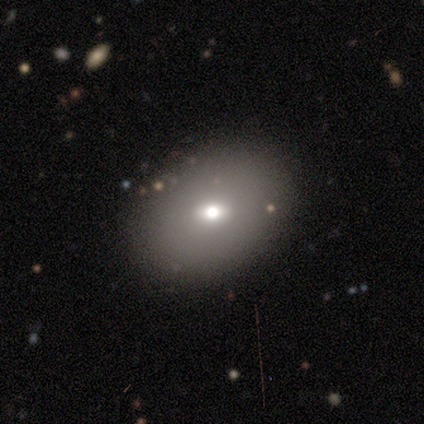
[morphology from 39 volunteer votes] Smooth or featured?
  - smooth: 69% *
  - featured or disk: 21%
  - star or artifact: 10%
How rounded?
  - in between: 67% *
  - round: 30%
  - cigar-shaped: 4%
Merging?
  - none: 91% *
  - major disturbance: 6%
  - minor disturbance: 3%
  - merger: 0%